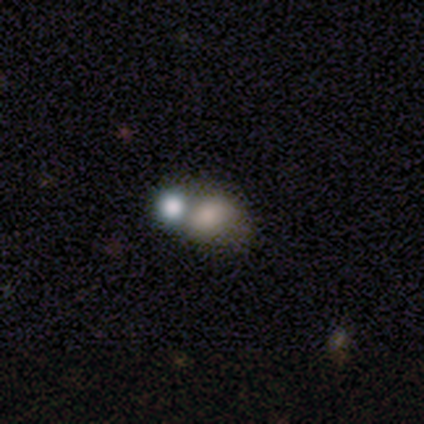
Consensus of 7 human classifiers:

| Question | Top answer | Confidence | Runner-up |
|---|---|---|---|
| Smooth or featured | smooth | 71% | featured or disk (29%) |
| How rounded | round | 40% | tied: in between (40%) |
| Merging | merger | 57% | minor disturbance (29%) |